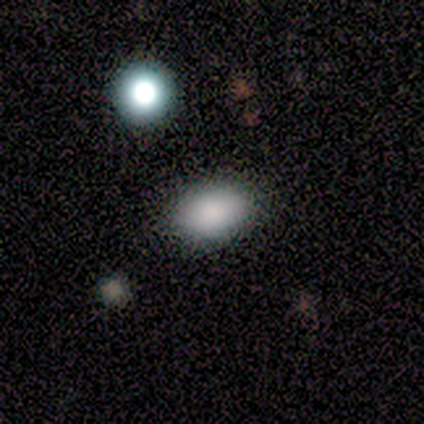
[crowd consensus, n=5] smooth 100%, featured or disk 0%, star or artifact 0%. Down the decision tree: how rounded — in between (80%); merging — none (80%).